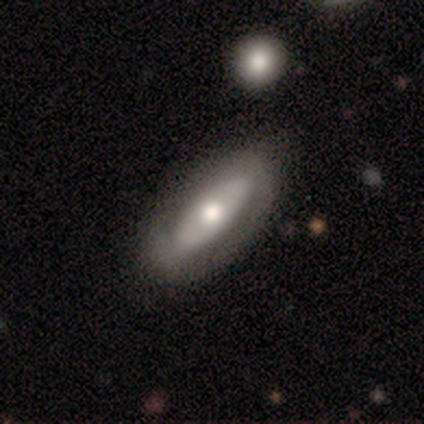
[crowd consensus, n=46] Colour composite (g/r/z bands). It shows a featured or disk galaxy (63%) with no bar (69%), no spiral arms (62%) and a moderate central bulge (88%). Merging: none (78%).